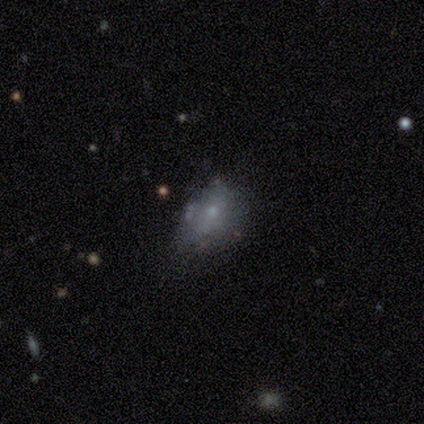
Morphology: type=smooth (50%, tied with featured or disk); roundness=round (50%, tied with in between); merging=none (50%, tied with minor disturbance).